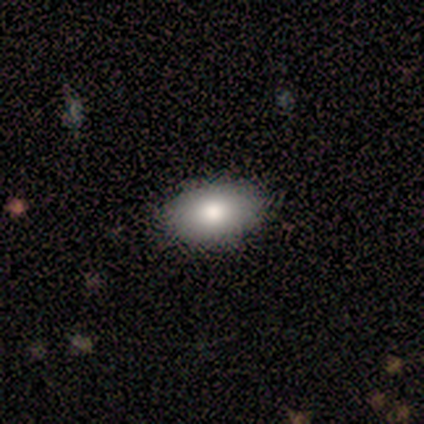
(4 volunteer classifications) Q: Smooth or featured?
A: smooth (75%); runner-up: featured or disk (25%)
Q: How rounded?
A: in between (100%)
Q: Merging?
A: none (100%)